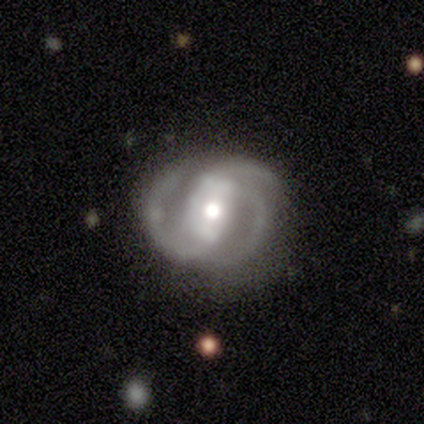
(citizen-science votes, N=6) Smooth or featured?
  - featured or disk: 100% *
  - smooth: 0%
  - star or artifact: 0%
Edge-on disk?
  - no: 100% *
  - yes: 0%
Bar?
  - no: 50% *
  - strong: 33%
  - weak: 17%
Spiral arms?
  - yes: 100% *
  - no: 0%
Spiral winding?
  - medium: 67% *
  - tight: 17%
  - loose: 17%
Spiral arm count?
  - 3: 100% *
  - 1: 0%
  - 2: 0%
  - 4: 0%
  - more than 4: 0%
  - can't tell: 0%
Bulge size?
  - moderate: 67% *
  - large: 17%
  - small: 17%
  - dominant: 0%
  - none: 0%
Merging?
  - none: 67% *
  - minor disturbance: 17%
  - major disturbance: 17%
  - merger: 0%